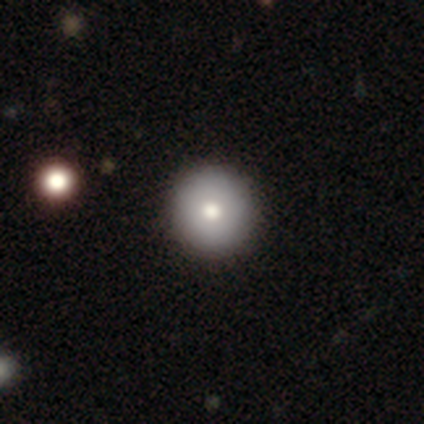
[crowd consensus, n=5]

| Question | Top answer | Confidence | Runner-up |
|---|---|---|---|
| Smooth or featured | smooth | 80% | featured or disk (20%) |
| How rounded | round | 100% | — |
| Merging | none | 100% | — |